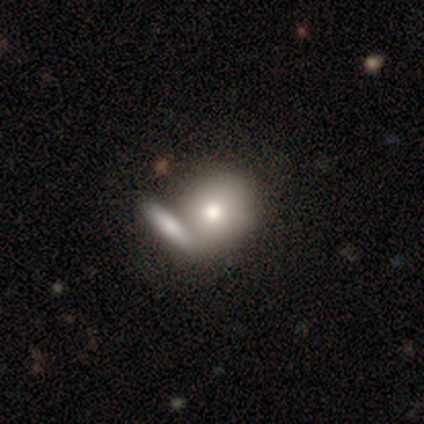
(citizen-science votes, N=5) This appears to be a smooth galaxy with no disk features (100%) that is in between round and cigar-shaped (60%). Merging: merger (60%).